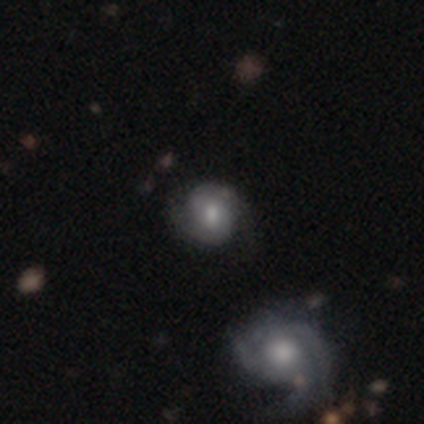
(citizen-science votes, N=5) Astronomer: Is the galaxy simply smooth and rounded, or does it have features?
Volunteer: featured or disk — 80%.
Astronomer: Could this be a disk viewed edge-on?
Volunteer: no — 75%.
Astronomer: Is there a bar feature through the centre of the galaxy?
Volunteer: no — 67%.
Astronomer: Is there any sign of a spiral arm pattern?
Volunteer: yes — 100%.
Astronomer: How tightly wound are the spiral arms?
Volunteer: medium — 67%.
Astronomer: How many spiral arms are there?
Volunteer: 2 — 67%.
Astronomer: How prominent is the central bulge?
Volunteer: small — 67%.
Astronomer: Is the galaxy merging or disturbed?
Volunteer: none — 60% (runner-up: minor disturbance, 40%).